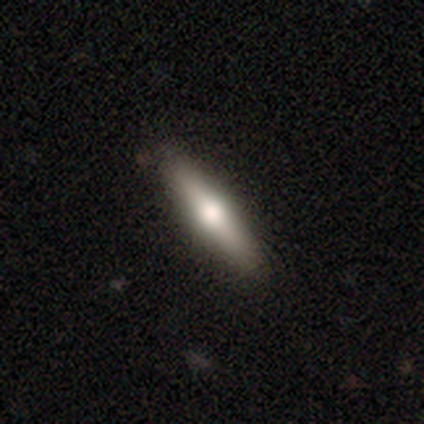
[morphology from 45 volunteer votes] This is possibly a smooth galaxy (53%). How rounded: likely cigar-shaped (79%). Merging: clearly none (89%).